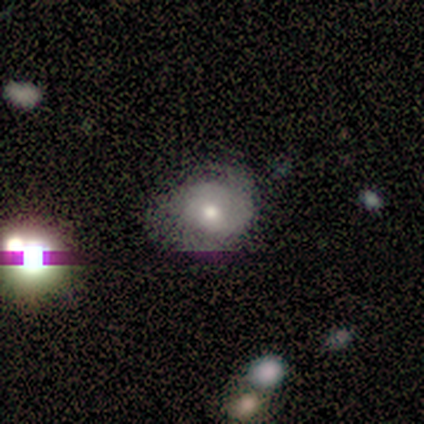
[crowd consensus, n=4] Smooth or featured?
  - featured or disk: 50% *
  - smooth: 25%
  - star or artifact: 25%
Edge-on disk?
  - no: 100% *
  - yes: 0%
Bar?
  - no: 100% *
  - strong: 0%
  - weak: 0%
Spiral arms?
  - yes: 100% *
  - no: 0%
Spiral winding?
  - medium: 50% * (tied)
  - loose: 50% * (tied)
  - tight: 0%
Spiral arm count?
  - 2: 100% *
  - 1: 0%
  - 3: 0%
  - 4: 0%
  - more than 4: 0%
  - can't tell: 0%
Bulge size?
  - moderate: 100% *
  - dominant: 0%
  - large: 0%
  - small: 0%
  - none: 0%
Merging?
  - minor disturbance: 67% *
  - major disturbance: 33%
  - none: 0%
  - merger: 0%